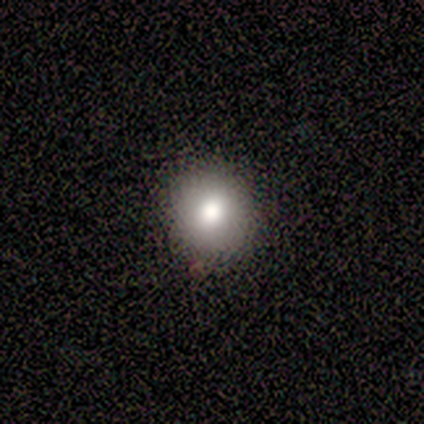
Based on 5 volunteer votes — A smooth galaxy with no disk features (100%) that is round (100%).

Vote fractions:
- Smooth or featured? smooth: 100% / featured or disk: 0% / star or artifact: 0%
- How rounded? round: 100% / in between: 0% / cigar-shaped: 0%
- Merging? none: 80% / minor disturbance: 20% / major disturbance: 0% / merger: 0%